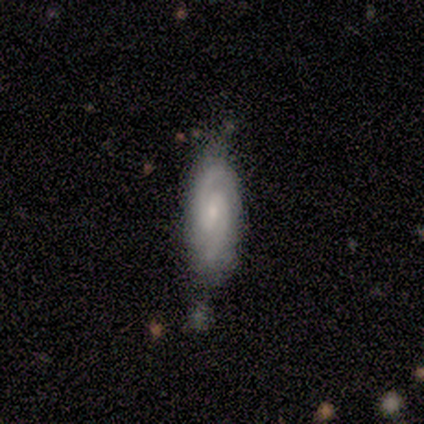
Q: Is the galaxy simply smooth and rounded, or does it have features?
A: featured or disk — 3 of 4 (75%).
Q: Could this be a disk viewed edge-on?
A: no — 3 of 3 (100%).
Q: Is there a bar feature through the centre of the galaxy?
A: weak — 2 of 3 (67%).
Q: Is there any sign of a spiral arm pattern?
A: yes — 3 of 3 (100%).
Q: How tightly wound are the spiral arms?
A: medium — 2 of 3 (67%).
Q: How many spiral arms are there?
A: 2 — 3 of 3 (100%).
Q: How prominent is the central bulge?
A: small — 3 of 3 (100%).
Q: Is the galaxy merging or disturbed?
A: none — 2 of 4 (50%, tied with minor disturbance).